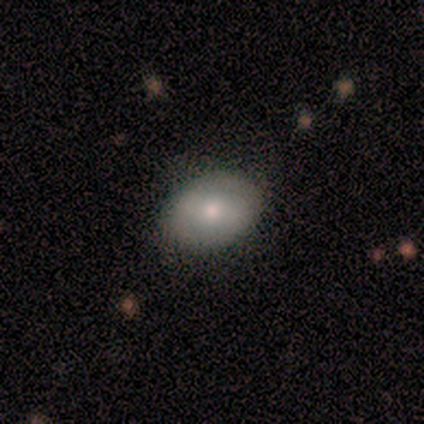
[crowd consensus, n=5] smooth 80%, featured or disk 20%, star or artifact 0%. Down the decision tree: how rounded — in between (75%); merging — none (100%).